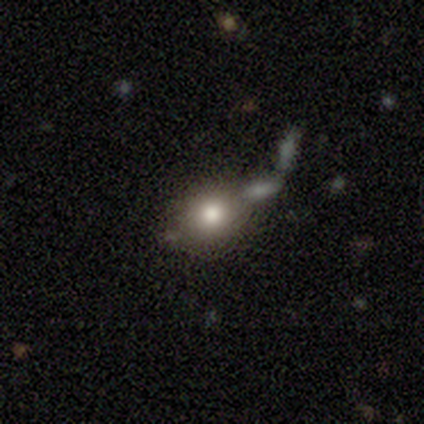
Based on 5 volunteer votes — A smooth galaxy with no disk features (100%) that is in between round and cigar-shaped (60%).

Vote fractions:
- Smooth or featured? smooth: 100% / featured or disk: 0% / star or artifact: 0%
- How rounded? in between: 60% / round: 40% / cigar-shaped: 0%
- Merging? none: 60% / merger: 40% / minor disturbance: 0% / major disturbance: 0%